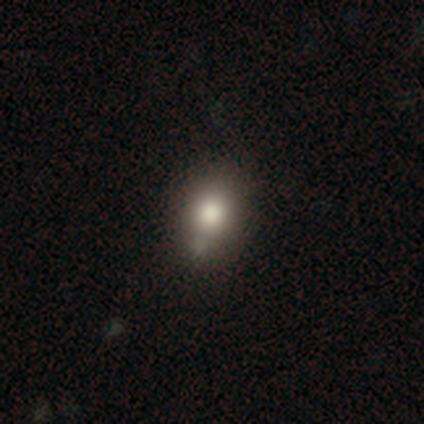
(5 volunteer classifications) smooth-or-featured: smooth: 60% | featured or disk: 20% | star or artifact: 20%
  how-rounded: round: 100% | in between: 0% | cigar-shaped: 0%
  merging: none: 50% (tied) | minor disturbance: 50% (tied) | major disturbance: 0% | merger: 0%